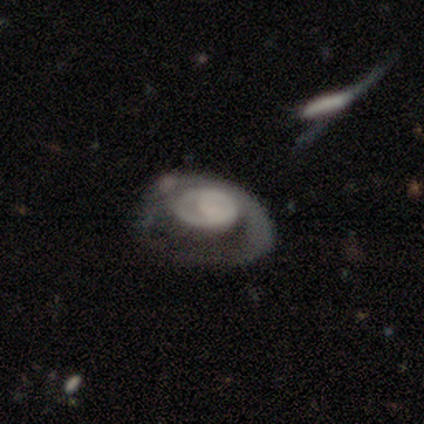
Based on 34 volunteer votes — Smooth or featured? 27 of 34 (79%) said featured or disk. Edge-on disk? 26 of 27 (96%) said no. Bar? 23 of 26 (88%) said no. Spiral arms? 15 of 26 (58%) said yes. Spiral winding? 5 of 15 (33%, tied with medium and loose) said tight. Spiral arm count? 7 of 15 (47%) said 1. Bulge size? 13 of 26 (50%) said none. Merging? 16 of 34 (47%) said major disturbance.